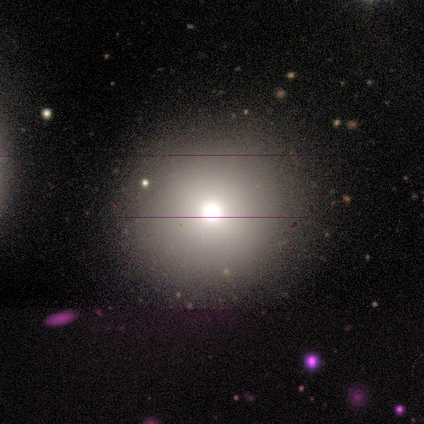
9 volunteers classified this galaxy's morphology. Overall: smooth (44%; featured or disk 33%). How rounded: round (100%). Merging: none (100%).